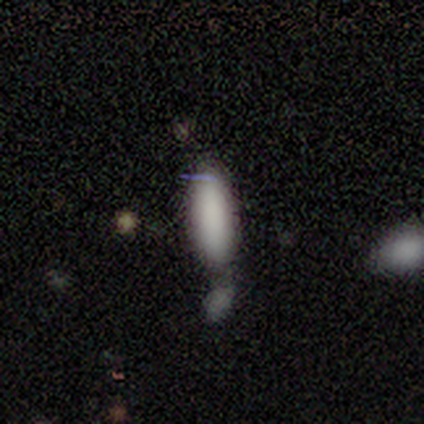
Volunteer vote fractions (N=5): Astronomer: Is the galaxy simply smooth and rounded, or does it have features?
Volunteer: smooth — 80%.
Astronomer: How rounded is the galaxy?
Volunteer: in between — 50%, tied with cigar-shaped at 50%.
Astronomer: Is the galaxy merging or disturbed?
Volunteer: merger — 50%.